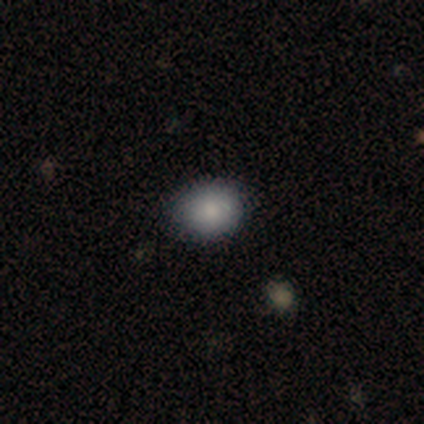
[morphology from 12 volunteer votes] Volunteers were most divided on "how rounded": round: 58%, in between: 42%, cigar-shaped: 0%. More confident: smooth or featured — smooth (100%); merging — none (75%).